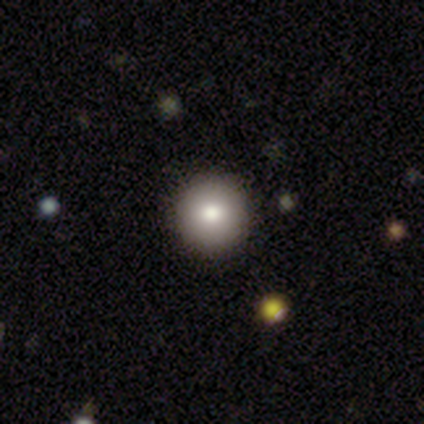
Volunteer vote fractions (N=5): smooth_or_featured: smooth (p=1.00)
how_rounded: round (p=1.00)
merging: none (p=1.00)